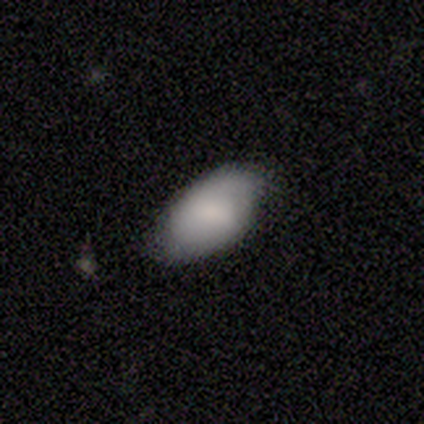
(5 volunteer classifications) Smooth or featured? 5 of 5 (100%) said smooth. How rounded? 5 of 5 (100%) said in between. Merging? 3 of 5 (60%) said none.